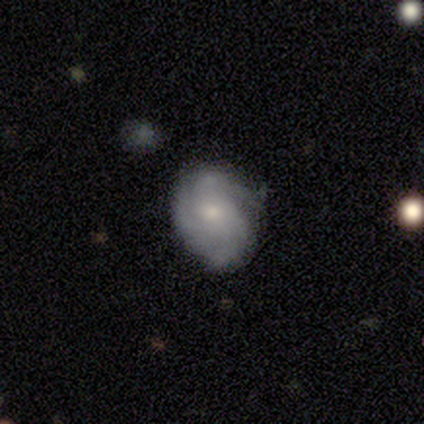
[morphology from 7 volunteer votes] Smooth or featured: featured or disk — 57% (smooth — 43%)
Edge-on disk: no — 100%
Bar: no — 75% (weak — 25%)
Spiral arms: yes — 100%
Spiral winding: medium — 75% (loose — 25%)
Spiral arm count: 3 — 75% (can't tell — 25%)
Bulge size: small — 75% (moderate — 25%)
Merging: none — 43% (tied with minor disturbance — 43%)